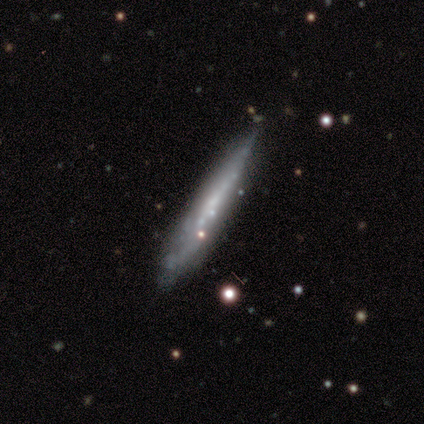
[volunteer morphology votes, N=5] A featured or disk galaxy (80%) viewed edge-on (100%) with no central bulge (50%, tied with rounded).

Vote fractions:
- Smooth or featured? featured or disk: 80% / smooth: 20% / star or artifact: 0%
- Edge-on disk? yes: 100% / no: 0%
- Edge-on bulge? none: 50% (tied) / rounded: 50% (tied) / boxy: 0%
- Merging? none: 80% / merger: 20% / minor disturbance: 0% / major disturbance: 0%